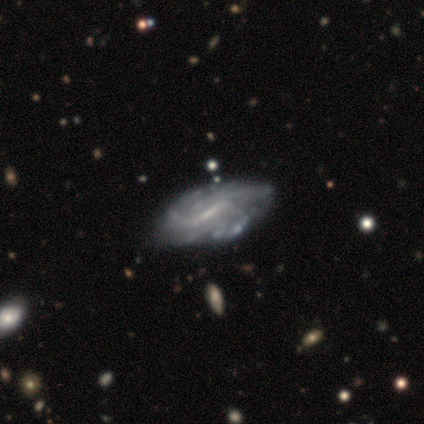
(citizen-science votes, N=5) Smooth or featured: featured or disk — 60% (smooth — 20%)
Edge-on disk: yes — 67% (no — 33%)
Edge-on bulge: rounded — 100%
Merging: minor disturbance — 75% (major disturbance — 25%)